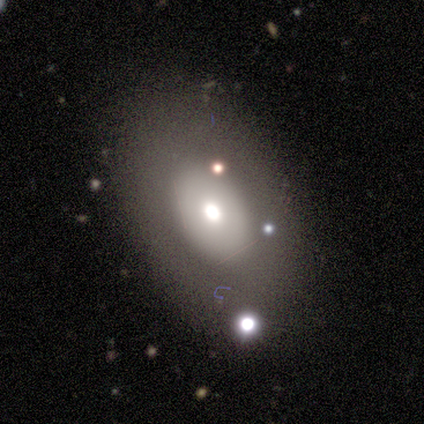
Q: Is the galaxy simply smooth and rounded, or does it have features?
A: smooth — 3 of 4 (75%).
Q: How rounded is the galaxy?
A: in between — 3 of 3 (100%).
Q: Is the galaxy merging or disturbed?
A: none — 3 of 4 (75%).